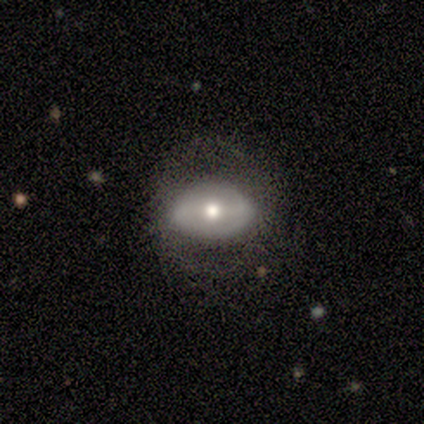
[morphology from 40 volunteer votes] This is likely a featured or disk galaxy (60%). It is clearly not viewed edge-on (88%). Bar: marginally weak (43%). Spiral arm pattern: likely no (62%). Central bulge: likely moderate (71%). Merging: likely none (74%).